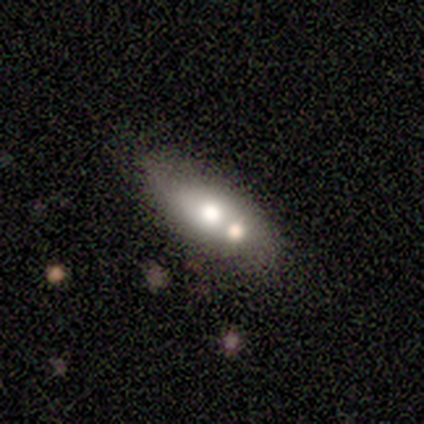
Smooth or featured? 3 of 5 (60%) said smooth. How rounded? 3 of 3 (100%) said in between. Merging? 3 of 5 (60%) said none.